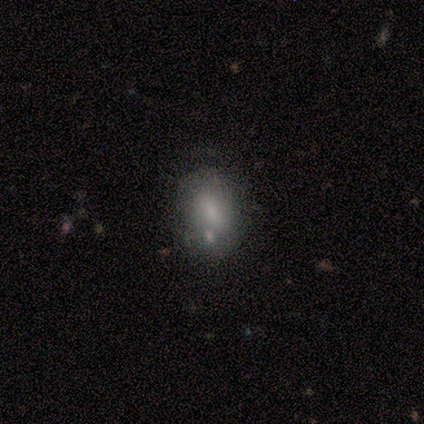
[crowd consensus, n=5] Smooth or featured: smooth — 80% (featured or disk — 20%)
How rounded: in between — 75% (cigar-shaped — 25%)
Merging: merger — 60% (none — 40%)